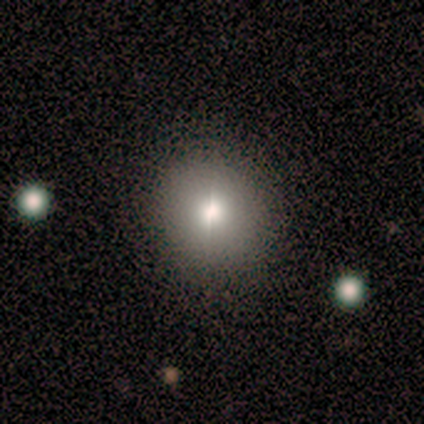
A smooth galaxy with no disk features (60%) that is round (67%).

Vote fractions:
- Smooth or featured? smooth: 60% / star or artifact: 40% / featured or disk: 0%
- How rounded? round: 67% / in between: 33% / cigar-shaped: 0%
- Merging? none: 67% / minor disturbance: 33% / major disturbance: 0% / merger: 0%